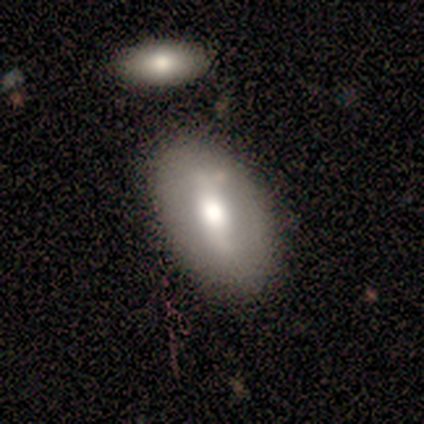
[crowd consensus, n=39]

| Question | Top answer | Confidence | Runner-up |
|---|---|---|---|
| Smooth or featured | smooth | 59% | featured or disk (36%) |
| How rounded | in between | 96% | cigar-shaped (4%) |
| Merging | none | 81% | minor disturbance (11%) |